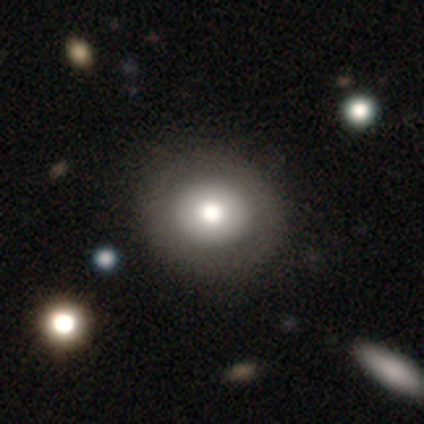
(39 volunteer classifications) Morphology: type=smooth (77%); roundness=round (87%); merging=none (70%).